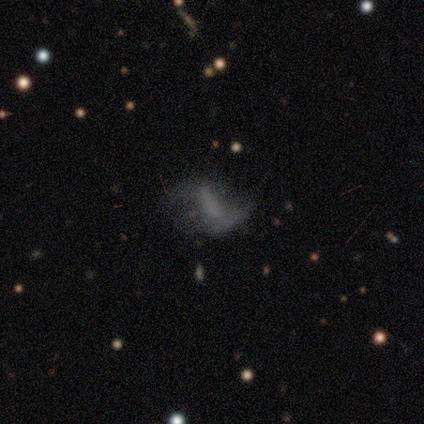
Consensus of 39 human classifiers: Volunteers were most divided on "merging": major disturbance: 28%, none: 22%, minor disturbance: 14%, merger: 14%. Remaining: edge-on disk — no (96%); spiral winding — loose (93%); bulge size — none (88%); spiral arm count — 2 (79%); smooth or featured — featured or disk (64%); spiral arms — yes (58%); bar — strong (42%).